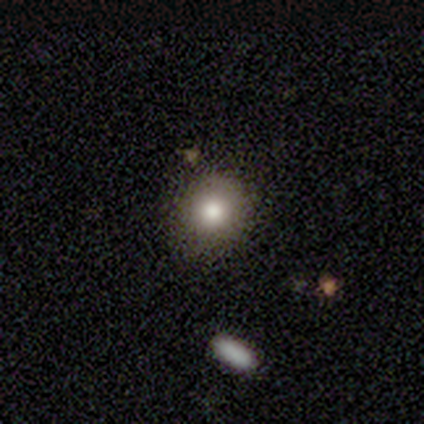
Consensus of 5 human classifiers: smooth_or_featured: smooth (p=1.00)
how_rounded: round (p=1.00)
merging: none (p=1.00)